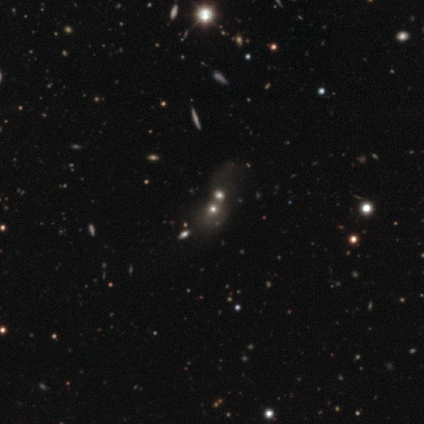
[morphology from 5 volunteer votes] Smooth or featured?
  - smooth: 40% * (tied)
  - star or artifact: 40% * (tied)
  - featured or disk: 20%
How rounded?
  - round: 50% * (tied)
  - in between: 50% * (tied)
  - cigar-shaped: 0%
Merging?
  - merger: 100% *
  - none: 0%
  - minor disturbance: 0%
  - major disturbance: 0%